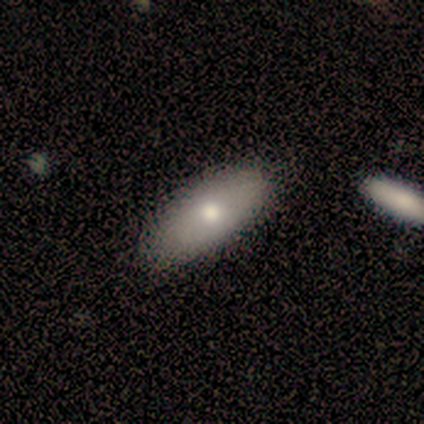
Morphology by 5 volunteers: smooth 100%, featured or disk 0%, star or artifact 0%. Down the decision tree: how rounded — in between (100%); merging — none (100%).